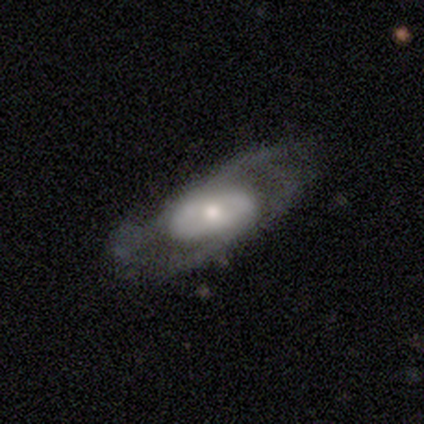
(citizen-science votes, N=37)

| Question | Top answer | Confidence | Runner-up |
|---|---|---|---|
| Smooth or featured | featured or disk | 76% | smooth (24%) |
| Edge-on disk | no | 93% | yes (7%) |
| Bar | no | 65% | strong (19%) |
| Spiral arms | yes | 77% | no (23%) |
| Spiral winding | medium | 40% | tight (35%) |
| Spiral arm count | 2 | 60% | can't tell (25%) |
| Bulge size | moderate | 69% | small (27%) |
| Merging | none | 57% | minor disturbance (30%) |